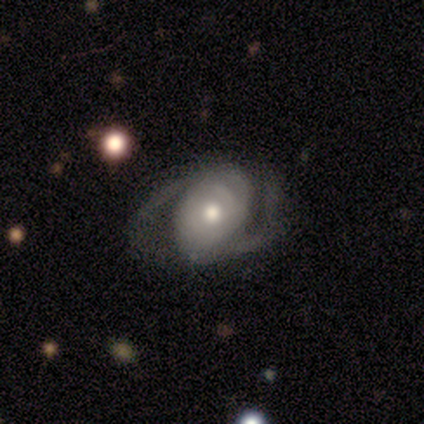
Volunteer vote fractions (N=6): This is likely a featured or disk galaxy (67%). It is clearly not viewed edge-on (100%). Bar: likely no (75%). Spiral arm pattern: clearly yes (100%). Spiral arm count: likely 2 (75%). Spiral winding: possibly medium (50%). Central bulge: possibly moderate (50%). Merging: possibly minor disturbance (50%).